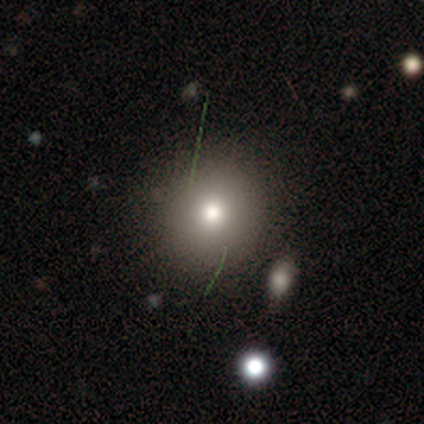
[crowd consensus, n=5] smooth 40% (tied), featured or disk 40% (tied), star or artifact 20%. Down the decision tree: how rounded — round (100%); merging — none (100%).